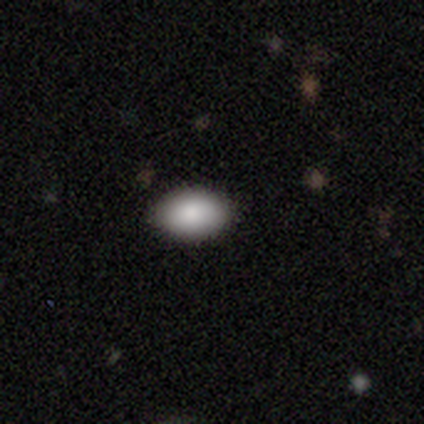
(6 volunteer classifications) Morphology: type=smooth (100%); roundness=in between (67%); merging=none (100%).